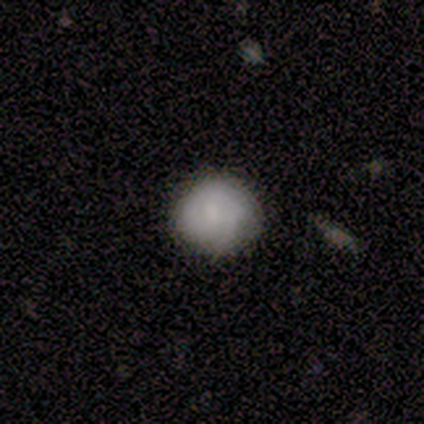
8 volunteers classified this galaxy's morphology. This appears to be a smooth galaxy with no disk features (62%) that is round (80%). Merging: none (62%).